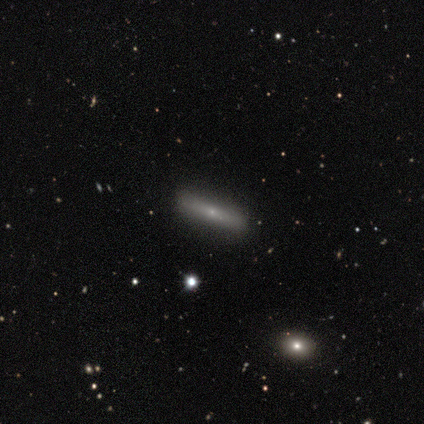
Morphology: type=featured or disk (60%); edge-on=yes (100%); edge-on bulge=none (67%); merging=none (100%).